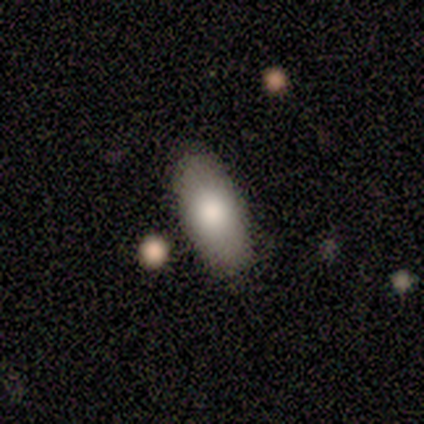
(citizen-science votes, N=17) This appears to be a smooth galaxy with no disk features (94%) that is in between round and cigar-shaped (94%). Merging: none (94%).